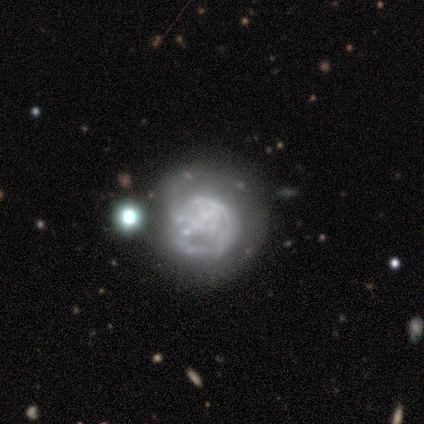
smooth_or_featured: featured or disk (p=0.80) [alt: star or artifact p=0.20]
disk_edge_on: no (p=1.00)
bar: no (p=1.00)
has_spiral_arms: no (p=1.00)
bulge_size: none (p=0.50) [alt: moderate p=0.25]
merging: minor disturbance (p=0.50) [alt: none p=0.25]